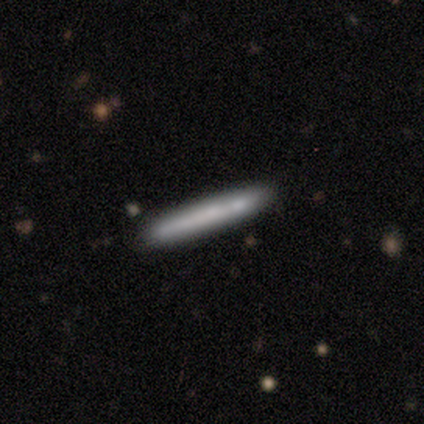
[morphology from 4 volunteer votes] This appears to be a smooth galaxy with no disk features (100%) that is cigar-shaped (100%). Merging: none (50%).